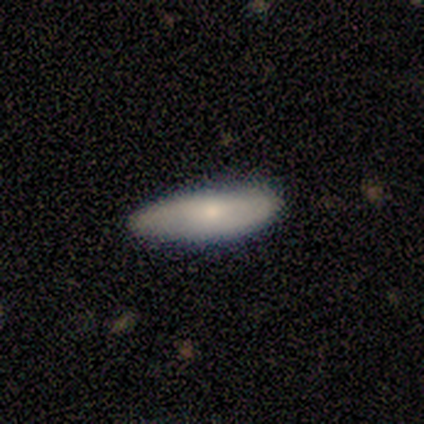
Smooth or featured? 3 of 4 (75%) said smooth. How rounded? 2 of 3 (67%) said cigar-shaped. Merging? 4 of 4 (100%) said none.